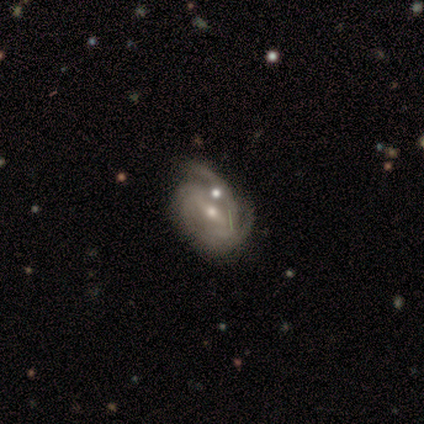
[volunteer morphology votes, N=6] A featured or disk galaxy (100%) with a weak bar (50%), 2 (50%) tight (67%) spiral arms (100%) and a moderate central bulge (83%).

Vote fractions:
- Smooth or featured? featured or disk: 100% / smooth: 0% / star or artifact: 0%
- Edge-on disk? no: 100% / yes: 0%
- Bar? weak: 50% / strong: 33% / no: 17%
- Spiral arms? yes: 100% / no: 0%
- Spiral winding? tight: 67% / medium: 17% / loose: 17%
- Spiral arm count? 2: 50% / 3: 33% / 4: 17% / 1: 0% / more than 4: 0% / can't tell: 0%
- Bulge size? moderate: 83% / small: 17% / dominant: 0% / large: 0% / none: 0%
- Merging? merger: 50% / minor disturbance: 33% / none: 17% / major disturbance: 0%